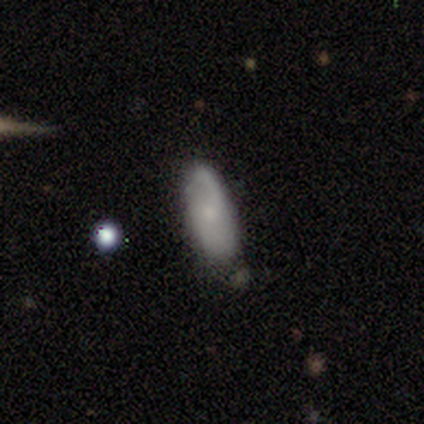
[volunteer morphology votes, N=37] Smooth or featured? 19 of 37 (51%) said smooth. How rounded? 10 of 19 (53%) said in between. Merging? 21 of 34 (62%) said none.